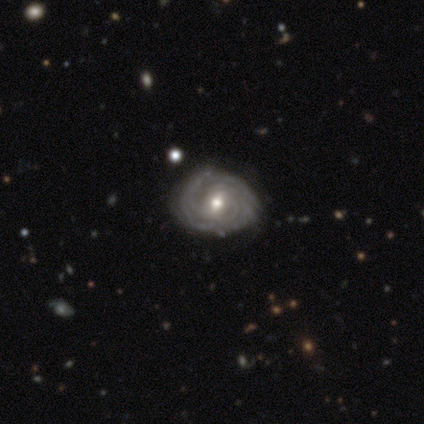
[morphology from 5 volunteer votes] This is clearly a featured or disk galaxy (80%). It is clearly not viewed edge-on (100%). Bar: likely no (75%). Spiral arm pattern: clearly yes (100%). Spiral arm count: clearly can't tell (100%). Spiral winding: likely tight (75%). Central bulge: likely moderate (75%). Merging: clearly none (80%).